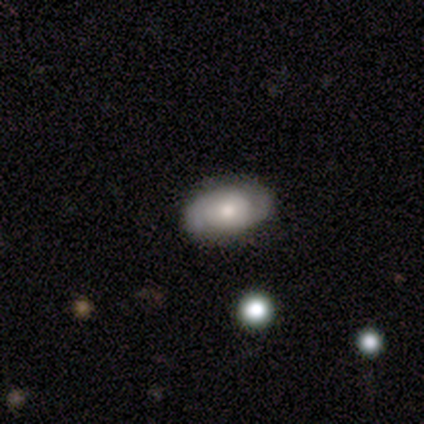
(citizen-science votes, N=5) A smooth galaxy with no disk features (80%) that is in between round and cigar-shaped (100%).

Vote fractions:
- Smooth or featured? smooth: 80% / featured or disk: 20% / star or artifact: 0%
- How rounded? in between: 100% / round: 0% / cigar-shaped: 0%
- Merging? none: 80% / merger: 20% / minor disturbance: 0% / major disturbance: 0%